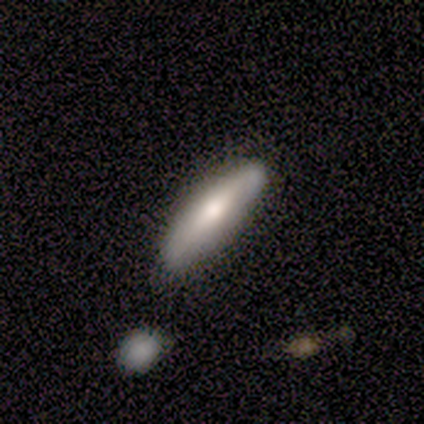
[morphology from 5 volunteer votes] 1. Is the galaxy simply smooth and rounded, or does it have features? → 80% smooth, 20% featured or disk, 0% star or artifact.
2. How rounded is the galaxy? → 50% in between (tied), 50% cigar-shaped (tied), 0% round.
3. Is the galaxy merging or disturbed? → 80% none, 20% minor disturbance, 0% major disturbance, 0% merger.